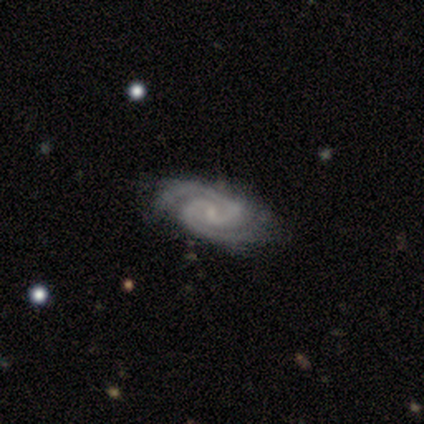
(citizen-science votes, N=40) A featured or disk galaxy (100%) with a weak bar (65%), 2 (97%) tight (56%) spiral arms (98%) and a small central bulge (65%).

Vote fractions:
- Smooth or featured? featured or disk: 100% / smooth: 0% / star or artifact: 0%
- Edge-on disk? no: 100% / yes: 0%
- Bar? weak: 65% / no: 28% / strong: 8%
- Spiral arms? yes: 98% / no: 2%
- Spiral winding? tight: 56% / medium: 38% / loose: 5%
- Spiral arm count? 2: 97% / 3: 3% / 1: 0% / 4: 0% / more than 4: 0% / can't tell: 0%
- Bulge size? small: 65% / none: 20% / moderate: 15% / dominant: 0% / large: 0%
- Merging? none: 60% / minor disturbance: 8% / major disturbance: 5% / merger: 0%